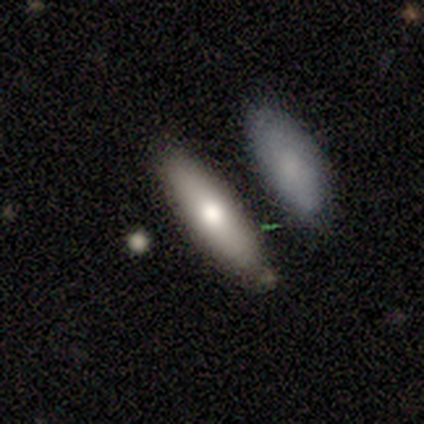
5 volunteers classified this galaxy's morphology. smooth-or-featured: smooth: 100% | featured or disk: 0% | star or artifact: 0%
  how-rounded: cigar-shaped: 80% | in between: 20% | round: 0%
  merging: none: 40% (tied) | minor disturbance: 40% (tied) | merger: 20% | major disturbance: 0%